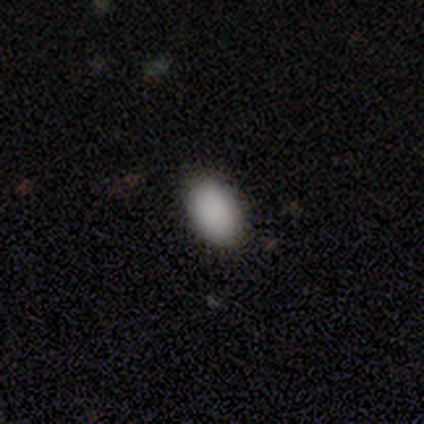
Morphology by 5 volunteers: Smooth or featured: smooth — 100%
How rounded: in between — 100%
Merging: none — 80% (major disturbance — 20%)